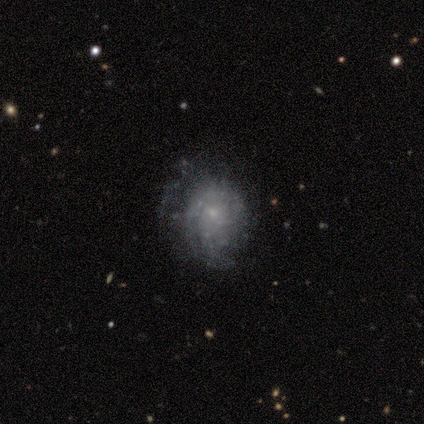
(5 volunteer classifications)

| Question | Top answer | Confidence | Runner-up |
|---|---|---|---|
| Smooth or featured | featured or disk | 100% | — |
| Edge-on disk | no | 100% | — |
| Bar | no | 80% | weak (20%) |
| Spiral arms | yes | 100% | — |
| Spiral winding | medium | 40% | tied: loose (40%) |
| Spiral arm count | can't tell | 80% | 3 (20%) |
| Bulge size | small | 60% | moderate (20%) |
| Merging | none | 40% | tied: major disturbance (40%) |